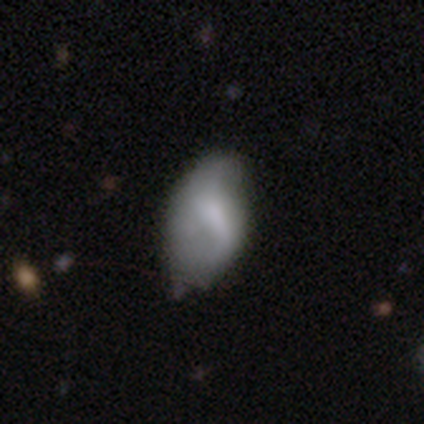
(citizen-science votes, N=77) Smooth or featured? 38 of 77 (49%) said smooth. How rounded? 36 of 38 (95%) said in between. Merging? 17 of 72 (24%) said none.